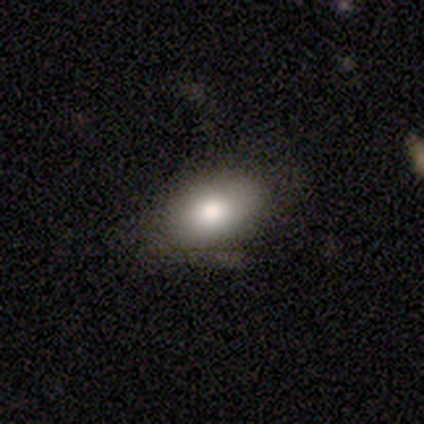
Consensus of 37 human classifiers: Q: Smooth or featured?
A: smooth (92%); runner-up: featured or disk (5%)
Q: How rounded?
A: in between (91%); runner-up: round (6%)
Q: Merging?
A: none (44%); runner-up: minor disturbance (11%)